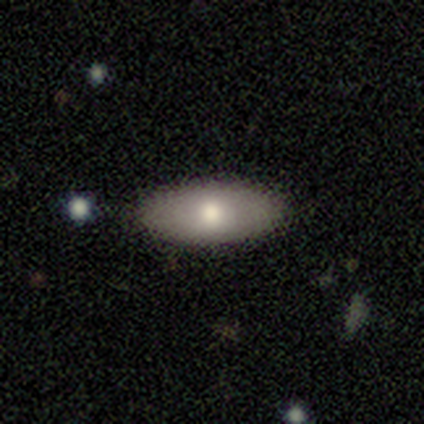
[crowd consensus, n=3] A smooth galaxy with no disk features (100%) that is in between round and cigar-shaped (100%).

Vote fractions:
- Smooth or featured? smooth: 100% / featured or disk: 0% / star or artifact: 0%
- How rounded? in between: 100% / round: 0% / cigar-shaped: 0%
- Merging? none: 67% / minor disturbance: 33% / major disturbance: 0% / merger: 0%